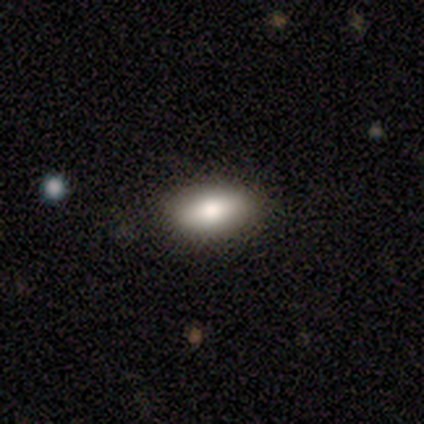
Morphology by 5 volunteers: smooth 100%, featured or disk 0%, star or artifact 0%. Down the decision tree: how rounded — in between (100%); merging — none (100%).